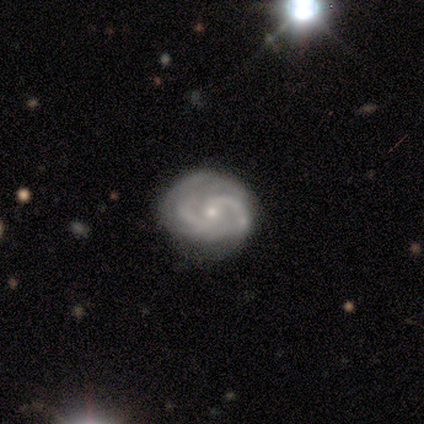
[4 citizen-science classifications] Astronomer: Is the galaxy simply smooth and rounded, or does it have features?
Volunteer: featured or disk — 100%.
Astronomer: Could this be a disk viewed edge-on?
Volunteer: no — 100%.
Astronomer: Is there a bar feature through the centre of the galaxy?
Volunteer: no — 100%.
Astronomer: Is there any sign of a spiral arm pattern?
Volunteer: yes — 100%.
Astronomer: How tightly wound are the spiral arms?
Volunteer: tight — 50%, tied with medium at 50%.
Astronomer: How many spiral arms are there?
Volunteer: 2 — 75%.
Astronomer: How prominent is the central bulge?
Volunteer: small — 75%.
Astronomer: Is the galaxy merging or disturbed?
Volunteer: none — 75%.